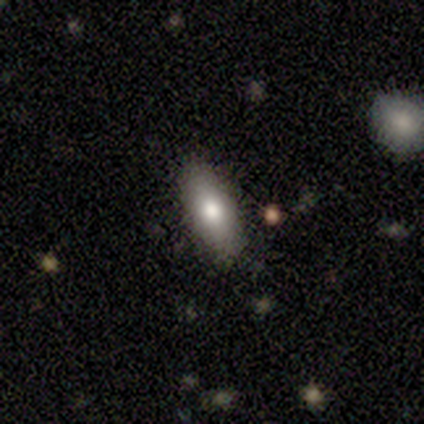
This is clearly a smooth galaxy (84%). How rounded: possibly in between (56%). Merging: clearly none (83%).